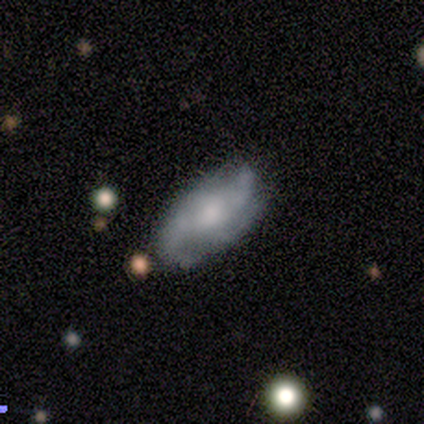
Smooth or featured? featured or disk (60%)
Edge-on disk? no (100%)
Bar? weak (67%)
Spiral arms? yes (67%)
Spiral winding? medium (50%, tied with loose)
Spiral arm count? 2 (50%, tied with 3)
Bulge size? moderate (33%, tied with small and none)
Merging? none (75%)